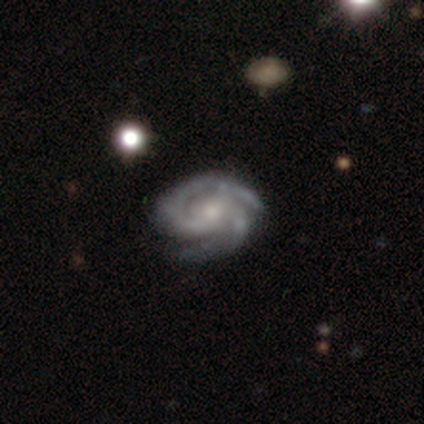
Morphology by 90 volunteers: smooth-or-featured: featured or disk: 97% | star or artifact: 2% | smooth: 1%
  disk-edge-on: no: 99% | yes: 1%
    bar: no: 58% | weak: 31% | strong: 10%
    has-spiral-arms: yes: 97% | no: 3%
      spiral-winding: tight: 67% | medium: 30% | loose: 2%
      spiral-arm-count: 2: 73% | 3: 16% | can't tell: 5% | 4: 4% | more than 4: 2% | 1: 0%
    bulge-size: small: 65% | moderate: 31% | none: 3% | dominant: 0% | large: 0%
  merging: none: 74% | minor disturbance: 17% | major disturbance: 8% | merger: 1%